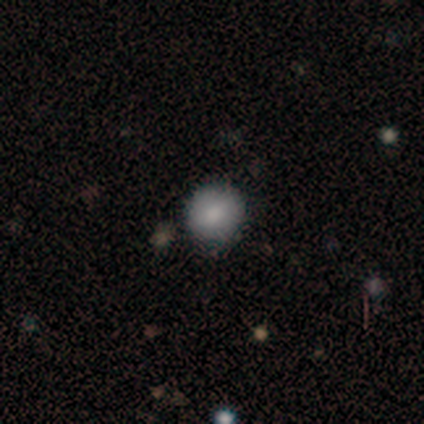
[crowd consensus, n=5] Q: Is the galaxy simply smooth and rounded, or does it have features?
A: smooth — 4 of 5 (80%).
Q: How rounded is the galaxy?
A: round — 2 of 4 (50%, tied with in between).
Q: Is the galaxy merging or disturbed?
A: none — 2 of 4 (50%).